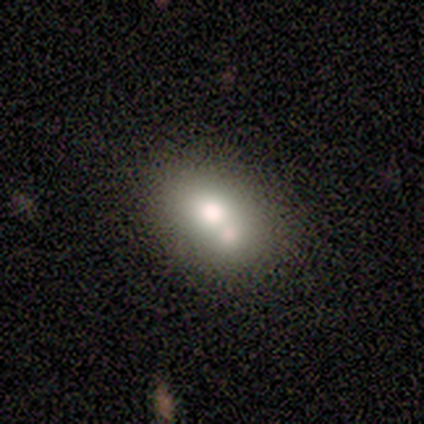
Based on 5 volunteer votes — Smooth or featured?
  - featured or disk: 60% *
  - smooth: 40%
  - star or artifact: 0%
Edge-on disk?
  - no: 100% *
  - yes: 0%
Bar?
  - no: 100% *
  - strong: 0%
  - weak: 0%
Spiral arms?
  - no: 100% *
  - yes: 0%
Bulge size?
  - large: 67% *
  - moderate: 33%
  - dominant: 0%
  - small: 0%
  - none: 0%
Merging?
  - none: 60% *
  - minor disturbance: 20%
  - merger: 20%
  - major disturbance: 0%